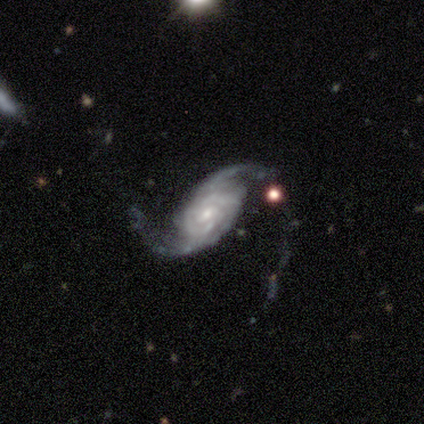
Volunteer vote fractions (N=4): Q: Smooth or featured?
A: featured or disk (100%)
Q: Edge-on disk?
A: no (100%)
Q: Bar?
A: no (75%); runner-up: strong (25%)
Q: Spiral arms?
A: yes (100%)
Q: Spiral winding?
A: loose (50%); runner-up: tight (25%)
Q: Spiral arm count?
A: 2 (75%); runner-up: can't tell (25%)
Q: Bulge size?
A: small (75%); runner-up: moderate (25%)
Q: Merging?
A: none (50%); runner-up: minor disturbance (25%)